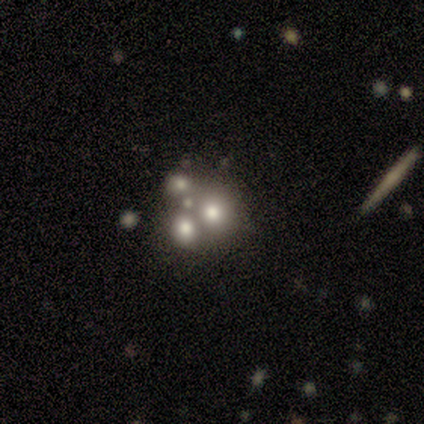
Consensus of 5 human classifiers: smooth 40% (tied), featured or disk 40% (tied), star or artifact 20%. Down the decision tree: how rounded — round (50%, tied with in between); merging — merger (75%).